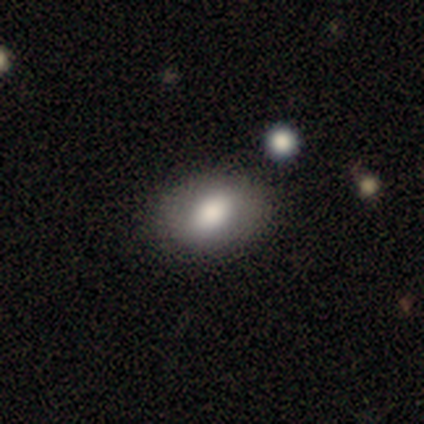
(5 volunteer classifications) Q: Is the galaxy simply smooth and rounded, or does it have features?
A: smooth — 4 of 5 (80%).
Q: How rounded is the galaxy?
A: in between — 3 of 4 (75%).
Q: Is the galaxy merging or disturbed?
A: none — 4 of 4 (100%).